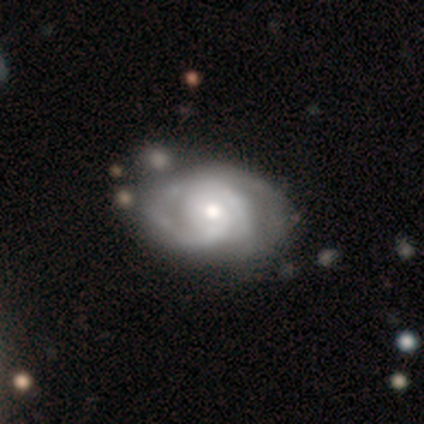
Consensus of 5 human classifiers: This appears to be a featured or disk galaxy (100%) with a weak bar (50%, tied with no), 3 (50%) tight (75%) spiral arms (100%) and a small central bulge (75%). Merging: none (80%).